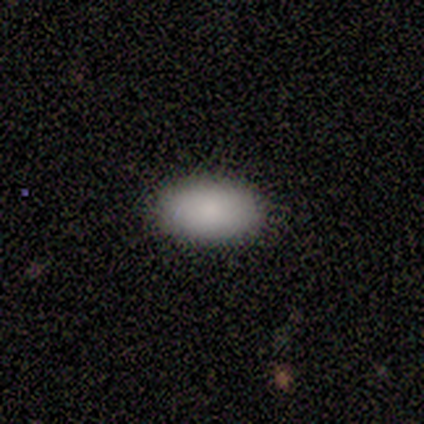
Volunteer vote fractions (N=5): Smooth or featured? smooth (100%)
How rounded? in between (100%)
Merging? none (100%)